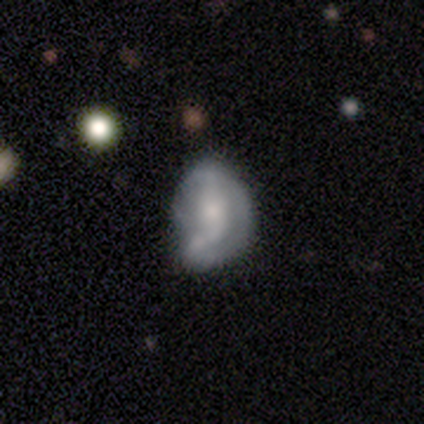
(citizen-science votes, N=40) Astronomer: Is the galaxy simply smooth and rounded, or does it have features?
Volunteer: featured or disk — 72%.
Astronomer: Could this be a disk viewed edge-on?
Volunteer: no — 97%.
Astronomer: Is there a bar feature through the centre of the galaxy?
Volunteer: no — 50% (runner-up: weak, 43%).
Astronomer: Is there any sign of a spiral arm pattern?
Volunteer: yes — 54% (runner-up: no, 46%).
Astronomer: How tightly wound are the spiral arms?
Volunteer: medium — 40% (runner-up: loose, 33%).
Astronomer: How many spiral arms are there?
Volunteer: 2 — 40%, tied with can't tell at 40%.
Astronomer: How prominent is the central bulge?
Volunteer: small — 43% (runner-up: moderate, 25%).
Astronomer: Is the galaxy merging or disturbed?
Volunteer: minor disturbance — 23% (runner-up: major disturbance, 13%).